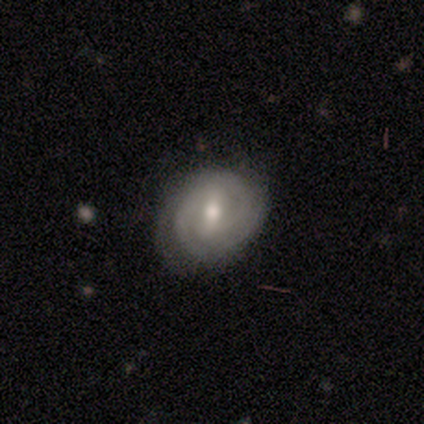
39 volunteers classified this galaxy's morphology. A featured or disk galaxy (74%) with a weak bar (52%), 2 (75%) tight (75%) spiral arms (97%) and a moderate central bulge (69%).

Vote fractions:
- Smooth or featured? featured or disk: 74% / smooth: 23% / star or artifact: 3%
- Edge-on disk? no: 100% / yes: 0%
- Bar? weak: 52% / strong: 41% / no: 7%
- Spiral arms? yes: 97% / no: 3%
- Spiral winding? tight: 75% / medium: 21% / loose: 4%
- Spiral arm count? 2: 75% / can't tell: 18% / 3: 7% / 1: 0% / 4: 0% / more than 4: 0%
- Bulge size? moderate: 69% / small: 31% / dominant: 0% / large: 0% / none: 0%
- Merging? none: 76% / minor disturbance: 11% / major disturbance: 3% / merger: 3%